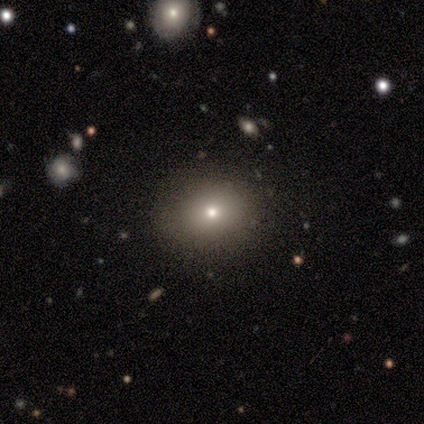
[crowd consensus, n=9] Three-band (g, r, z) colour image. It shows a smooth galaxy with no disk features (89%) that is round (62%). Merging: none (62%).